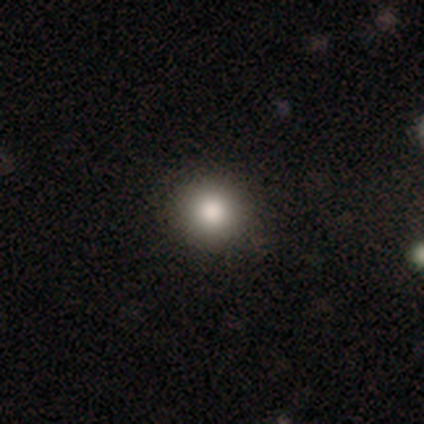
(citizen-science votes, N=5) This appears to be a smooth galaxy with no disk features (80%) that is round (100%). Merging: none (80%).